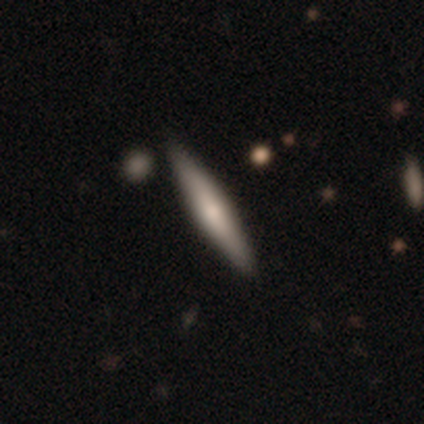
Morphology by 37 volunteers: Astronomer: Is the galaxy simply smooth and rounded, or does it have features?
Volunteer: featured or disk — 54% (runner-up: smooth, 41%).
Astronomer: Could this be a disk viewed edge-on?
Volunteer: yes — 95%.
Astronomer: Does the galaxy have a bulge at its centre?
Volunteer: rounded — 47% (runner-up: none, 32%).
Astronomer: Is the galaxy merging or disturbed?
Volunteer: none — 83%.